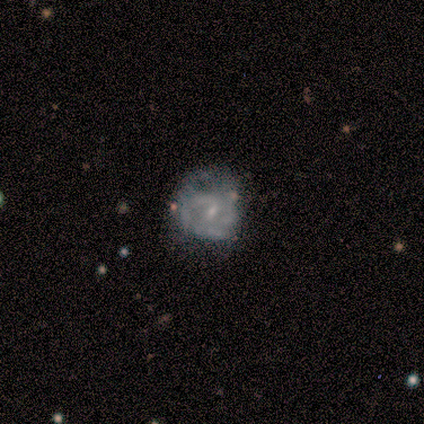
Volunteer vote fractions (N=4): This appears to be a featured or disk galaxy (75%) with a weak bar (67%), 2 (50%, tied with can't tell) tight (50%, tied with loose) spiral arms (67%) and a small central bulge (100%). Merging: none (100%).